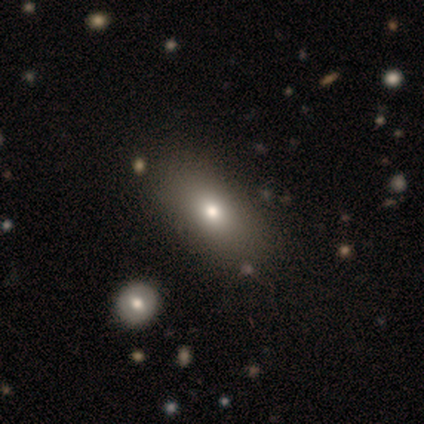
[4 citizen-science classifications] Smooth or featured? 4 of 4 (100%) said smooth. How rounded? 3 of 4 (75%) said in between. Merging? 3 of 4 (75%) said none.